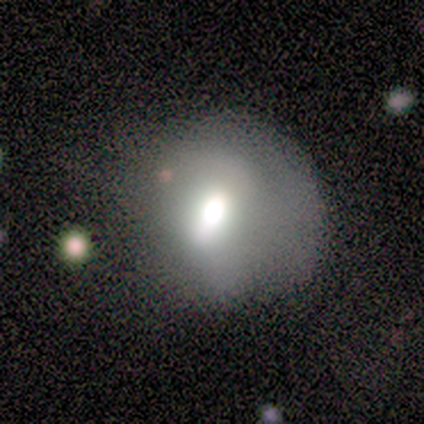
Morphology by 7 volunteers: smooth 43% (tied), featured or disk 43% (tied), star or artifact 14%. Down the decision tree: how rounded — in between (67%); merging — none (50%, tied with minor disturbance).